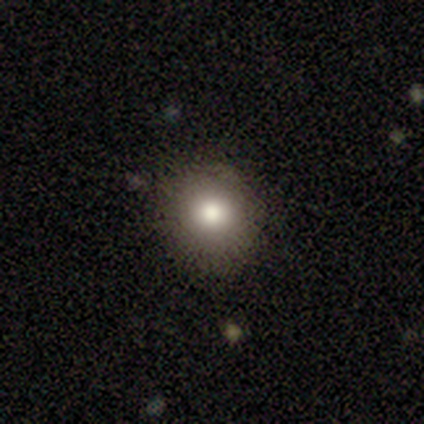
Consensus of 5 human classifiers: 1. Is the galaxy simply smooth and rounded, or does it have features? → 80% smooth, 20% star or artifact, 0% featured or disk.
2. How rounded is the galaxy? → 100% round, 0% in between, 0% cigar-shaped.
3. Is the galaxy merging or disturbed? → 50% none, 25% minor disturbance, 25% merger, 0% major disturbance.